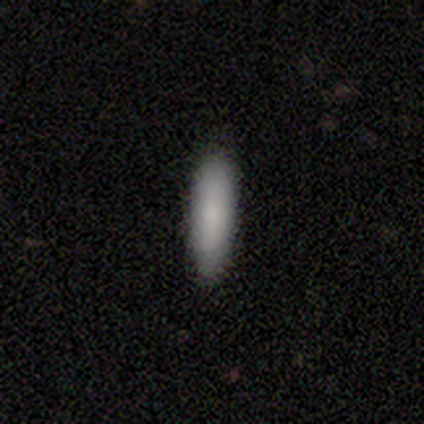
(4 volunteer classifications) Smooth or featured? smooth (100%)
How rounded? cigar-shaped (100%)
Merging? none (100%)